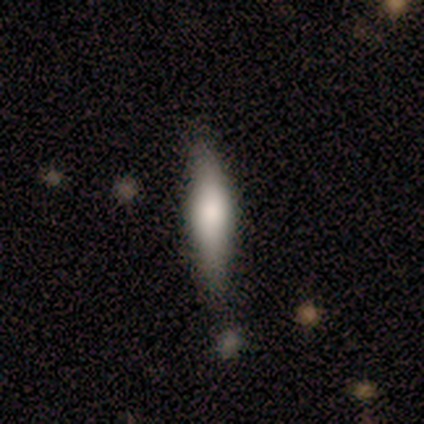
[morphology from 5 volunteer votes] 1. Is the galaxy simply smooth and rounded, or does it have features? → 100% featured or disk, 0% smooth, 0% star or artifact.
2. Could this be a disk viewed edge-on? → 100% yes, 0% no.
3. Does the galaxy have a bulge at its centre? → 60% rounded, 20% boxy, 20% none.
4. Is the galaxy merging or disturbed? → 100% none, 0% minor disturbance, 0% major disturbance, 0% merger.